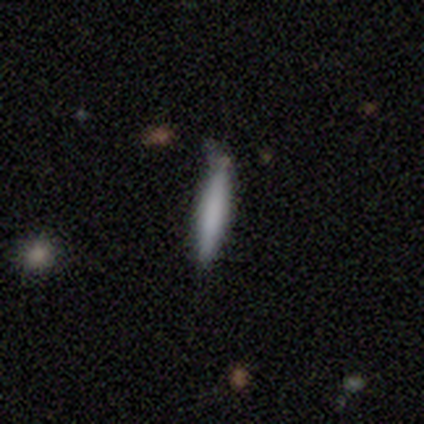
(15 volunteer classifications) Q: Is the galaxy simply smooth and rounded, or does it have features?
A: smooth — 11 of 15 (73%).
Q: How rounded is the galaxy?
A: cigar-shaped — 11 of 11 (100%).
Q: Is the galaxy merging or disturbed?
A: none — 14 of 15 (93%).